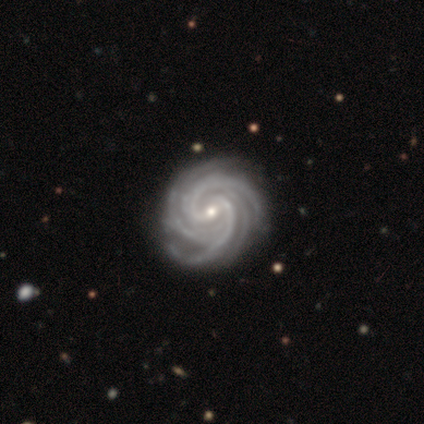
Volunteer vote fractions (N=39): Overall: featured or disk (100%). Edge-on disk: no (100%). Bar: no (41%; weak 38%). Spiral arms: yes (100%). Spiral arm count: 4 (36%; more than 4 33%). Spiral winding: tight (62%; medium 38%). Bulge size: small (72%). Merging: none (59%).